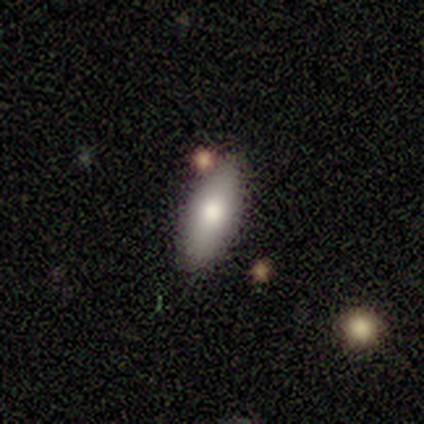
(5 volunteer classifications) Q: Smooth or featured?
A: smooth (80%); runner-up: star or artifact (20%)
Q: How rounded?
A: in between (75%); runner-up: cigar-shaped (25%)
Q: Merging?
A: none (75%); runner-up: minor disturbance (25%)